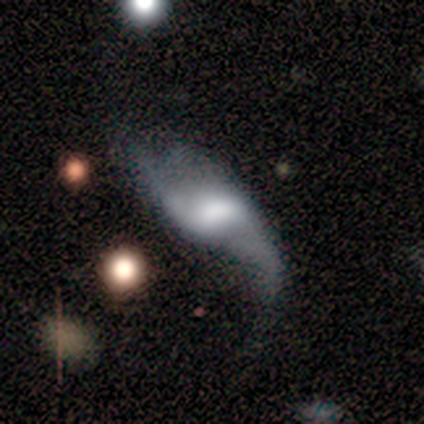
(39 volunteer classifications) Volunteers were most divided on "bulge size" (2-way tie): large: 32%, moderate: 32%, none: 24%, dominant: 8%, small: 4%. Remaining: spiral arms — yes (100%); edge-on disk — no (93%); spiral winding — loose (88%); spiral arm count — 2 (84%); smooth or featured — featured or disk (69%); bar — no (40%); merging — major disturbance (38%).